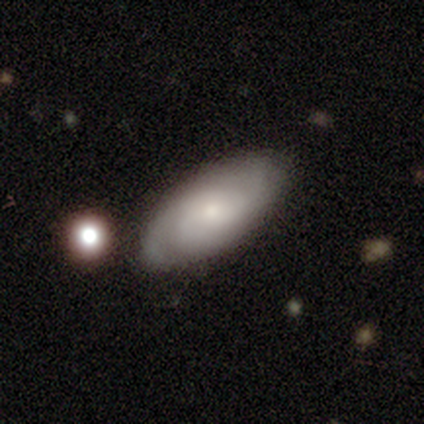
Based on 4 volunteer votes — Smooth or featured: smooth — 50% (tied with featured or disk — 50%)
How rounded: in between — 100%
Merging: none — 50% (tied with minor disturbance — 50%)